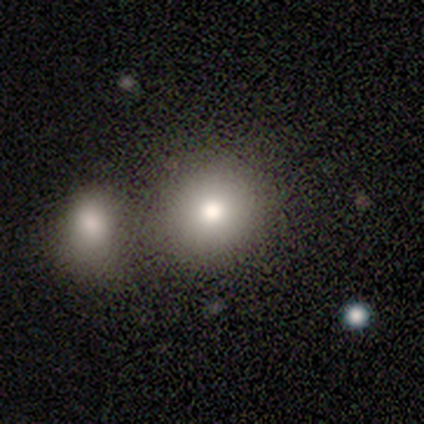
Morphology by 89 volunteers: A smooth galaxy with no disk features (73%) that is round (71%).

Vote fractions:
- Smooth or featured? smooth: 73% / star or artifact: 20% / featured or disk: 7%
- How rounded? round: 71% / in between: 28% / cigar-shaped: 2%
- Merging? none: 51% / merger: 34% / minor disturbance: 13% / major disturbance: 3%